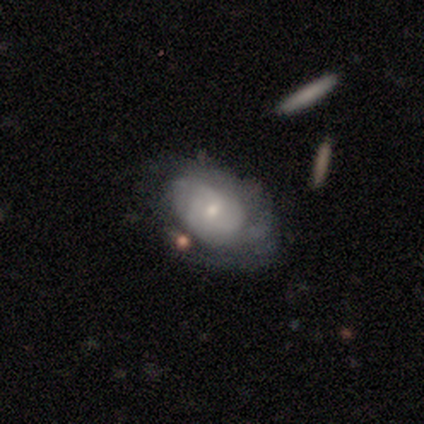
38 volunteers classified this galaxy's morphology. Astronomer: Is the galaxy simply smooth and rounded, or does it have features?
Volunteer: featured or disk — 61%.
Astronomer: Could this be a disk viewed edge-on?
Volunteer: no — 100%.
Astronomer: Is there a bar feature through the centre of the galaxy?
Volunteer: no — 57% (runner-up: weak, 43%).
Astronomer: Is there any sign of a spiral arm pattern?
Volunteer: yes — 91%.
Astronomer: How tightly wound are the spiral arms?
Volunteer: tight — 57% (runner-up: medium, 38%).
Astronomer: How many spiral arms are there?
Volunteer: can't tell — 52%.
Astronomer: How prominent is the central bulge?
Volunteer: small — 70%.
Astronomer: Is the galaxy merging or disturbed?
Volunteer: none — 48% (runner-up: minor disturbance, 33%).